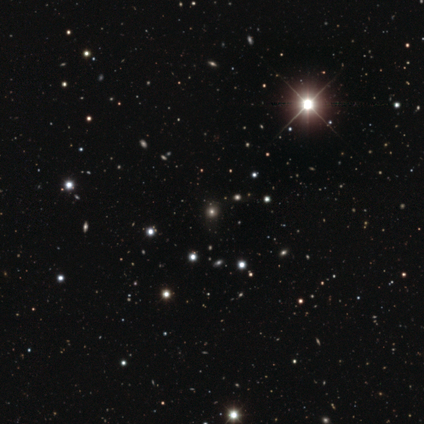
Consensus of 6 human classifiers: This is possibly a smooth galaxy (50%, tied with star or artifact). How rounded: clearly round (100%). Merging: clearly none (100%).